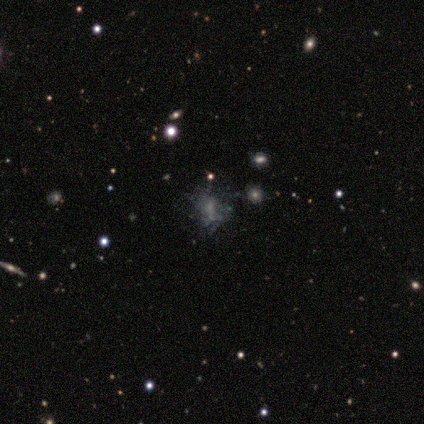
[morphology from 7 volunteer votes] Smooth or featured? featured or disk (57%)
Edge-on disk? no (100%)
Bar? no (100%)
Spiral arms? no (100%)
Bulge size? moderate (50%)
Merging? merger (50%)